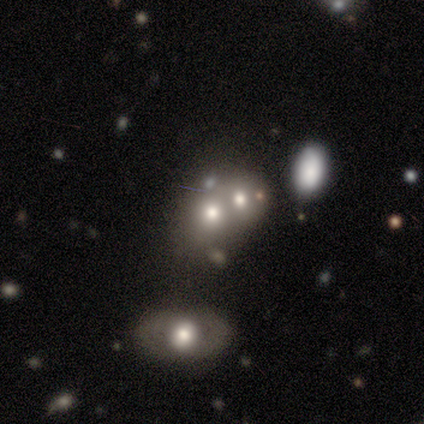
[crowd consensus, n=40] Overall: featured or disk (45%; smooth 42%). Edge-on disk: no (100%). Bar: no (94%). Spiral arms: no (100%). Bulge size: moderate (44%; large 22%). Merging: merger (63%; none 31%).